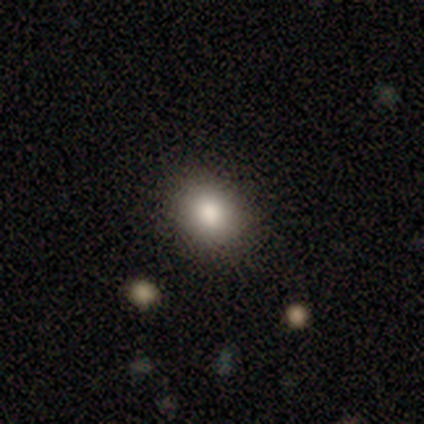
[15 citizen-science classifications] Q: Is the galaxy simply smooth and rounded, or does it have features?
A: smooth — 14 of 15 (93%).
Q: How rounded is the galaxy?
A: round — 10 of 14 (71%).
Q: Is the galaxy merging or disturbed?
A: none — 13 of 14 (93%).